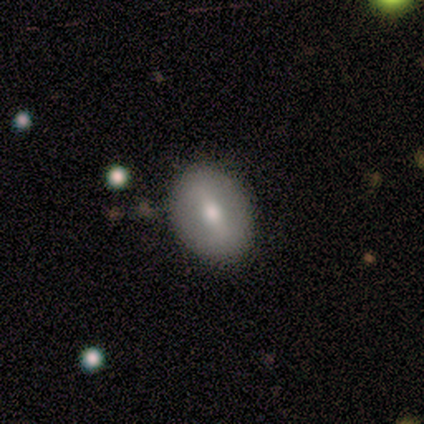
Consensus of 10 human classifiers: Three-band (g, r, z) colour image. It shows a smooth galaxy with no disk features (80%) that is in between round and cigar-shaped (75%). Merging: none (80%).